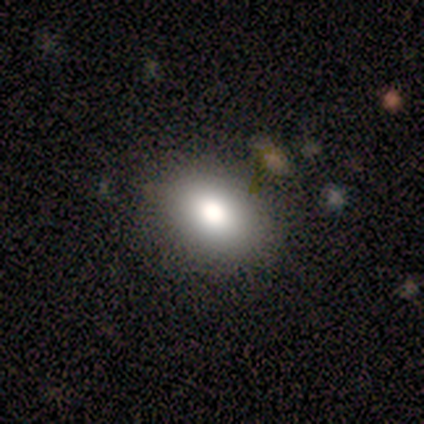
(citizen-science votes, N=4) This is likely a smooth galaxy (75%). How rounded: likely in between (67%). Merging: clearly none (100%).